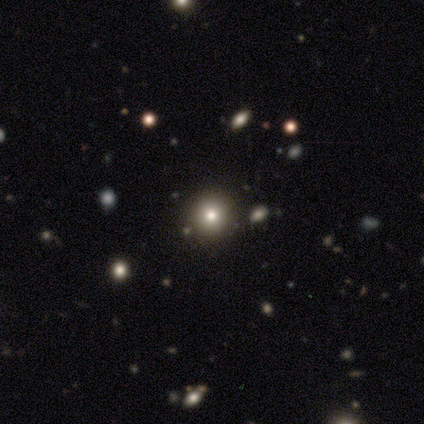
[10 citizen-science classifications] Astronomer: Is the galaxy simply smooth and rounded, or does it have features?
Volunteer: smooth — 50% (runner-up: star or artifact, 40%).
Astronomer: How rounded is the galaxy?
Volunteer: round — 80%.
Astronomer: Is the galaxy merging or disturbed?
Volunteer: none — 67%.